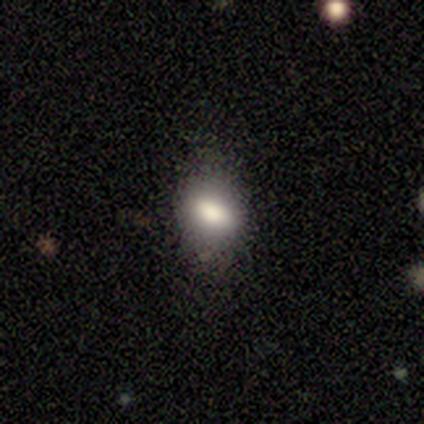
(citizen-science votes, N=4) Smooth or featured? 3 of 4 (75%) said smooth. How rounded? 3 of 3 (100%) said in between. Merging? 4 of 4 (100%) said none.